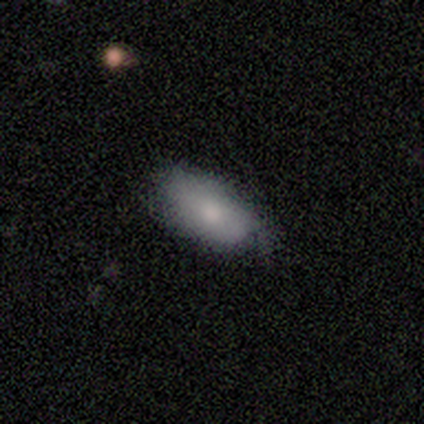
Overall: smooth (80%). How rounded: in between (100%). Merging: none (50%, tied with minor disturbance).